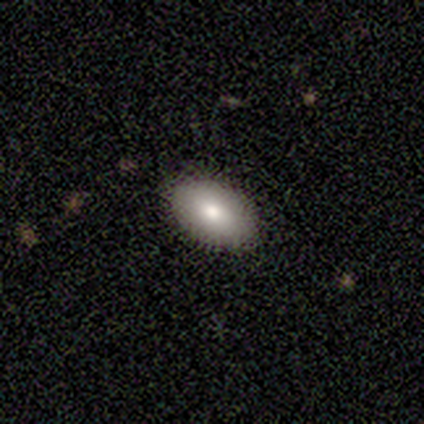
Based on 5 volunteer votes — smooth_or_featured: smooth (p=1.00)
how_rounded: in between (p=0.80) [alt: round p=0.20]
merging: none (p=1.00)